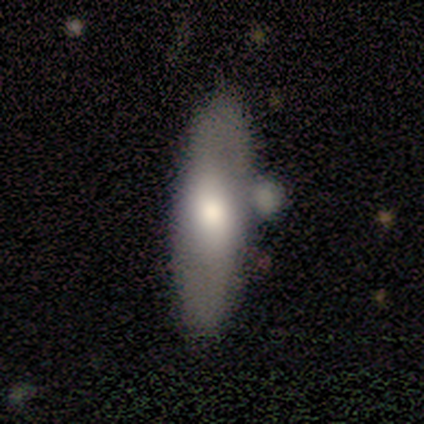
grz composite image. It shows a smooth galaxy with no disk features (100%) that is cigar-shaped (67%). Merging: minor disturbance (67%).